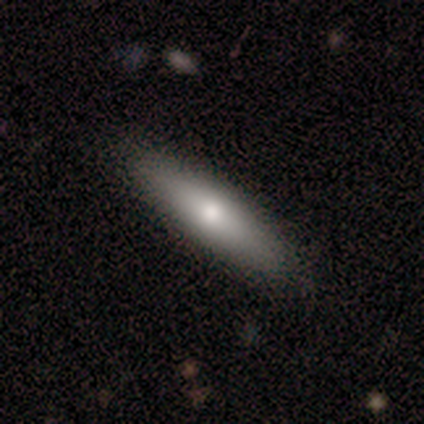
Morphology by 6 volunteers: A smooth galaxy with no disk features (83%) that is cigar-shaped (60%).

Vote fractions:
- Smooth or featured? smooth: 83% / featured or disk: 17% / star or artifact: 0%
- How rounded? cigar-shaped: 60% / in between: 40% / round: 0%
- Merging? none: 100% / minor disturbance: 0% / major disturbance: 0% / merger: 0%